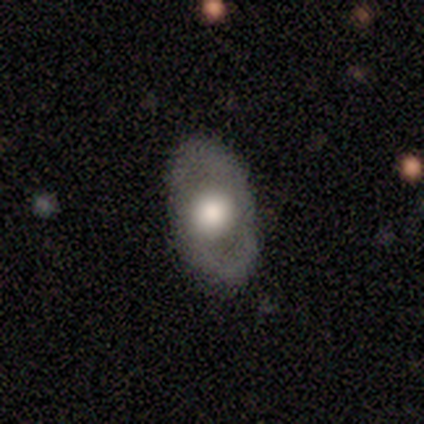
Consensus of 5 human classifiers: A featured or disk galaxy (60%) with a strong bar (33%, tied with weak and no), no spiral arms (100%) and a large central bulge (67%). Merging: none (80%).